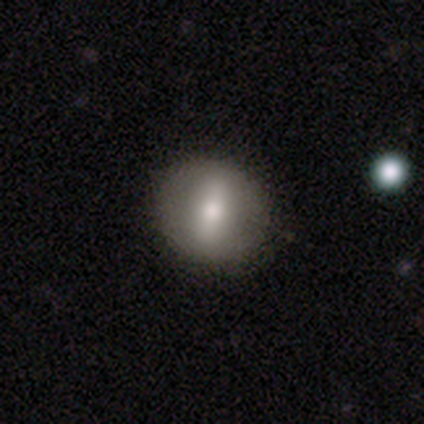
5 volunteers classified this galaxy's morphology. This appears to be a smooth galaxy with no disk features (60%) that is in between round and cigar-shaped (67%). Merging: none (80%).